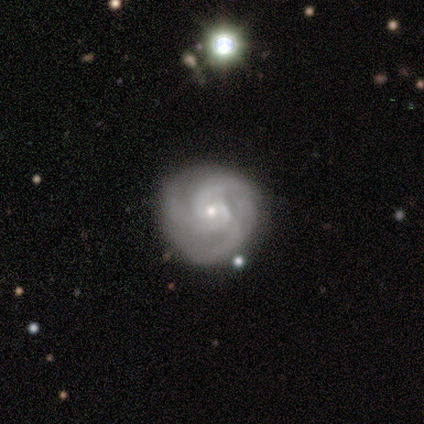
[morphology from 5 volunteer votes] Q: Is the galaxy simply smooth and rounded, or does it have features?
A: featured or disk — 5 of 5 (100%).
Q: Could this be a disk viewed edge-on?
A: no — 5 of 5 (100%).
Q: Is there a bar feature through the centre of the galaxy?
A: no — 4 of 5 (80%).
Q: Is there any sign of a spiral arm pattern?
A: yes — 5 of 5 (100%).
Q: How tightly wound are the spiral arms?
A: tight — 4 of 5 (80%).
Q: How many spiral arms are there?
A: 3 — 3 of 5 (60%).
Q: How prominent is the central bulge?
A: small — 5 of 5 (100%).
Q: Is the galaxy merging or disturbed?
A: none — 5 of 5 (100%).